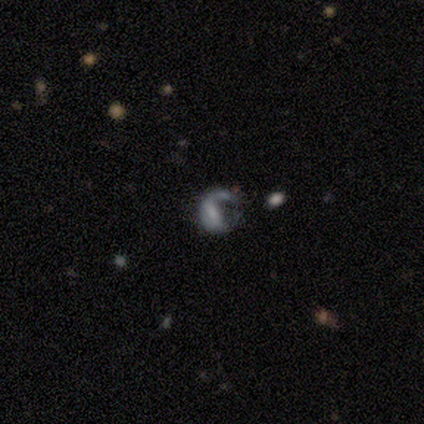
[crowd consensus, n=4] Overall: featured or disk (50%; smooth 25%). Edge-on disk: no (100%). Bar: weak (50%, tied with no). Spiral arms: yes (50%, tied with no). Spiral arm count: 1 (100%). Spiral winding: medium (100%). Bulge size: moderate (50%, tied with none). Merging: major disturbance (67%; none 33%).